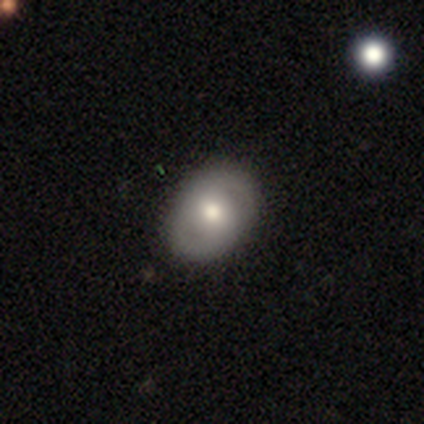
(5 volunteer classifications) Morphology: type=featured or disk (60%); edge-on=no (100%); bar=no (100%); spiral arms=yes (100%); winding=medium (67%); arm count=2 (100%); bulge=small (67%); merging=none (80%).